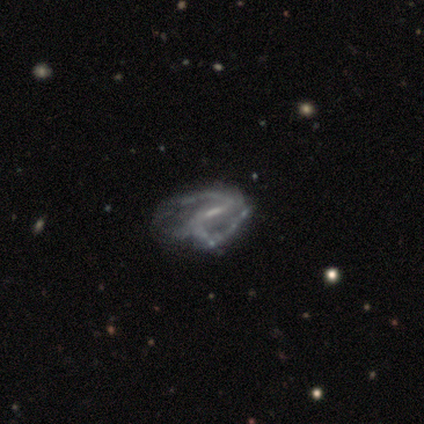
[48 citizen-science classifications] This is clearly a featured or disk galaxy (88%). It is clearly not viewed edge-on (98%). Bar: marginally weak (44%). Spiral arm pattern: likely yes (73%). Spiral arm count: possibly 2 (53%). Spiral winding: marginally medium (43%, tied with loose). Central bulge: possibly small (51%). Merging: marginally major disturbance (34%).